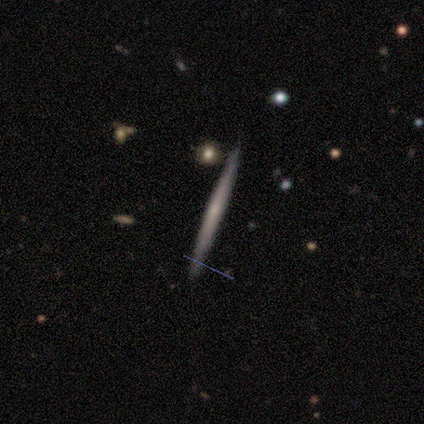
Smooth or featured? 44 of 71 (62%) said featured or disk. Edge-on disk? 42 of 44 (95%) said yes. Edge-on bulge? 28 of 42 (67%) said none. Merging? 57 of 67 (85%) said none.